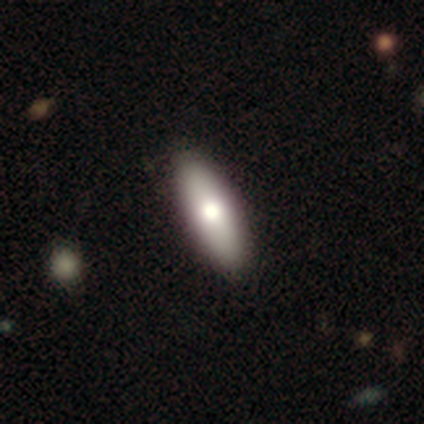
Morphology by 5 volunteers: This appears to be a smooth galaxy with no disk features (100%) that is in between round and cigar-shaped (80%). Merging: none (100%).